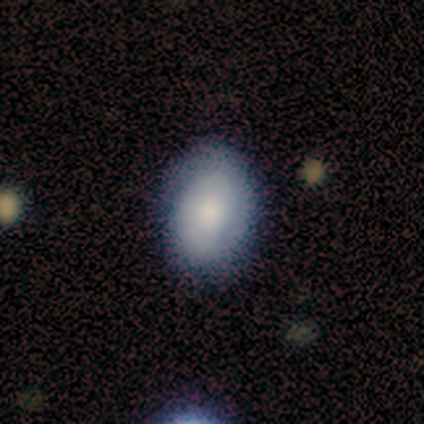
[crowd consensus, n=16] smooth-or-featured: smooth: 50% | featured or disk: 44% | star or artifact: 6%
  how-rounded: in between: 88% | round: 12% | cigar-shaped: 0%
  merging: none: 80% | minor disturbance: 20% | major disturbance: 0% | merger: 0%